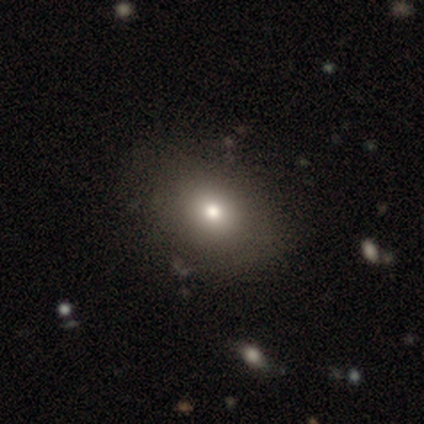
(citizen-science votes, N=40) Smooth or featured: smooth — 80% (featured or disk — 10%)
How rounded: round — 50% (tied with in between — 50%)
Merging: none — 83% (minor disturbance — 11%)